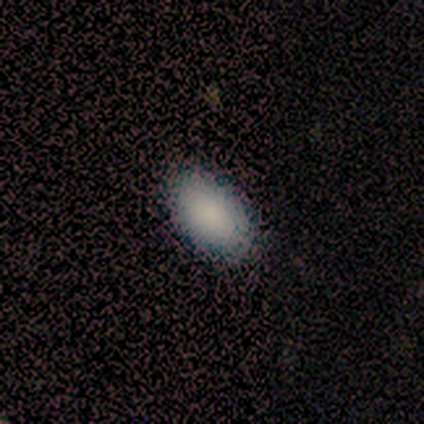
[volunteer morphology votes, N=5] A smooth galaxy with no disk features (100%) that is in between round and cigar-shaped (100%).

Vote fractions:
- Smooth or featured? smooth: 100% / featured or disk: 0% / star or artifact: 0%
- How rounded? in between: 100% / round: 0% / cigar-shaped: 0%
- Merging? none: 100% / minor disturbance: 0% / major disturbance: 0% / merger: 0%